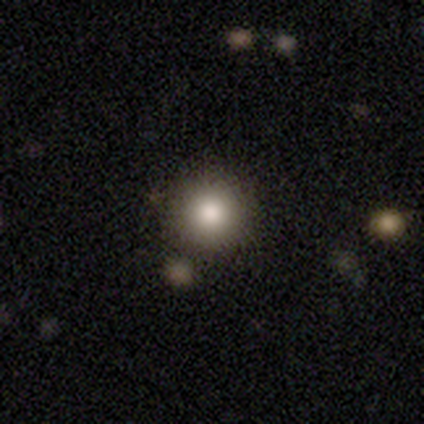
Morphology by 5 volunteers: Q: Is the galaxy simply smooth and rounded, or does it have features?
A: smooth — 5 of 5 (100%).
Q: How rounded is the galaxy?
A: round — 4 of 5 (80%).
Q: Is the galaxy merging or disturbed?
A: none — 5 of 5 (100%).